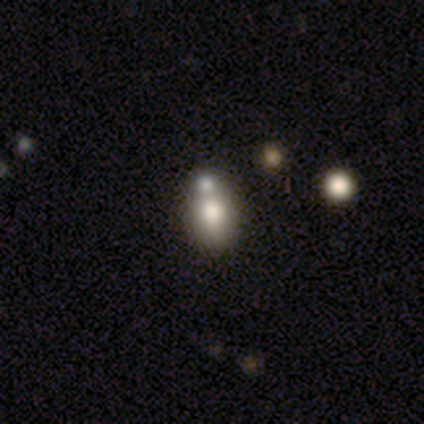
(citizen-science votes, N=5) smooth 60%, featured or disk 20%, star or artifact 20%. Down the decision tree: how rounded — in between (100%); merging — none (75%).